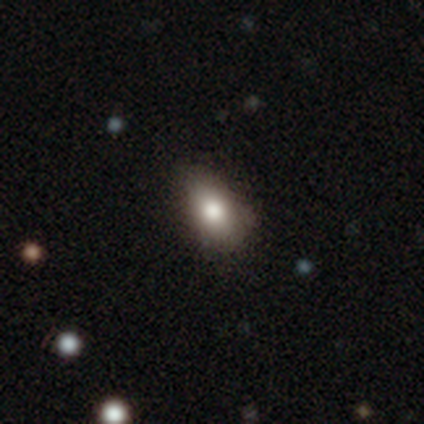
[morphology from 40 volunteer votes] A smooth galaxy with no disk features (70%) that is in between round and cigar-shaped (89%). Merging: none (76%).